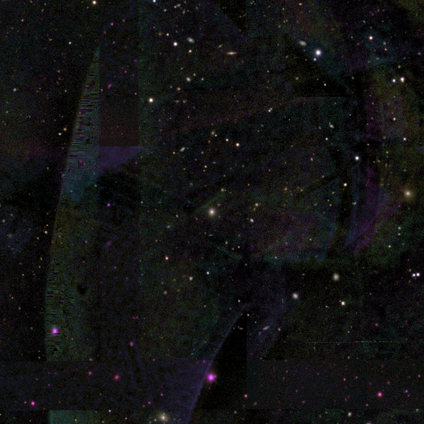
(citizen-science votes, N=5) Overall: star or artifact (60%; smooth 20%).